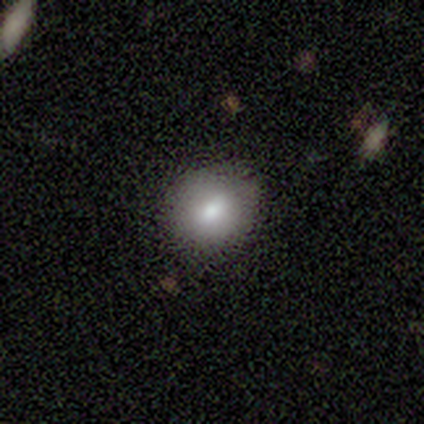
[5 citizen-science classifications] Morphology: type=smooth (100%); roundness=round (80%); merging=none (80%).